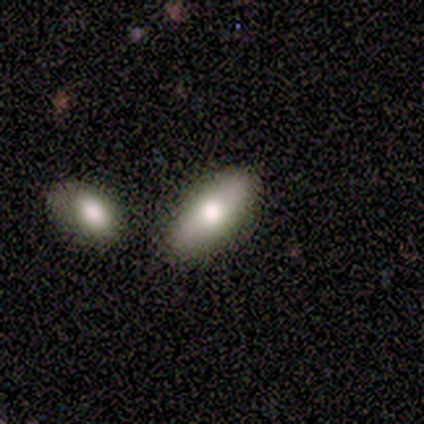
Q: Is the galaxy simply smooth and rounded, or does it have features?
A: smooth — 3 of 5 (60%).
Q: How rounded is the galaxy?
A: cigar-shaped — 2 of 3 (67%).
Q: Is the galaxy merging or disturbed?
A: none — 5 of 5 (100%).